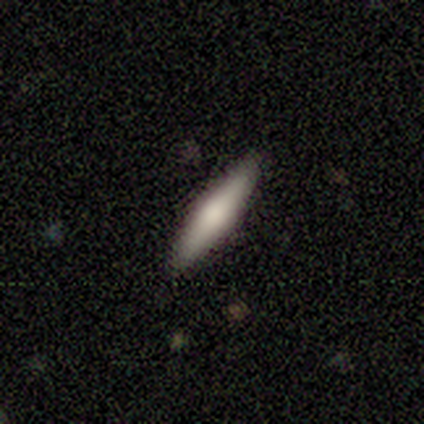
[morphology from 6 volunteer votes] A smooth galaxy with no disk features (67%) that is cigar-shaped (75%).

Vote fractions:
- Smooth or featured? smooth: 67% / featured or disk: 33% / star or artifact: 0%
- How rounded? cigar-shaped: 75% / in between: 25% / round: 0%
- Merging? none: 83% / minor disturbance: 17% / major disturbance: 0% / merger: 0%